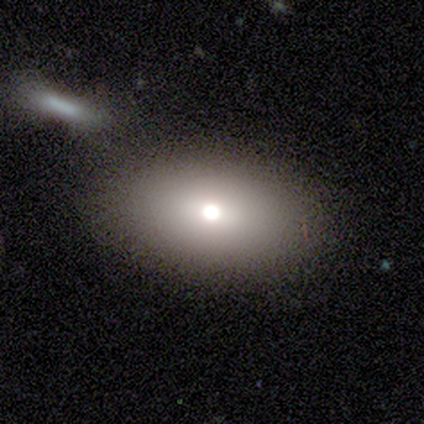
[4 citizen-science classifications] Smooth or featured: smooth — 75% (star or artifact — 25%)
How rounded: in between — 100%
Merging: none — 100%